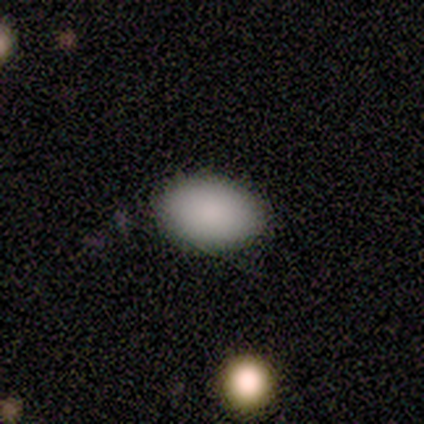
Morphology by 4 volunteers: smooth 100%, featured or disk 0%, star or artifact 0%. Down the decision tree: how rounded — in between (75%); merging — none (100%).